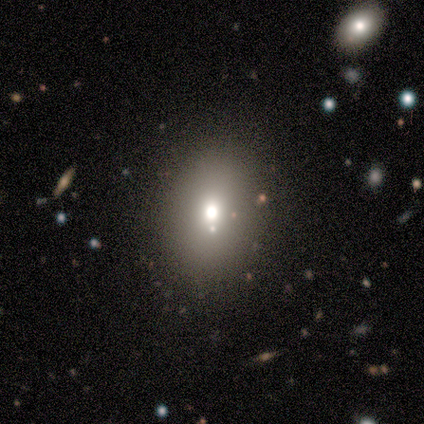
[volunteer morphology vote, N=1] type=featured or disk (100%); edge-on=no (100%); bar=no (100%); spiral arms=no (100%); bulge=moderate (100%); merging=none (100%).